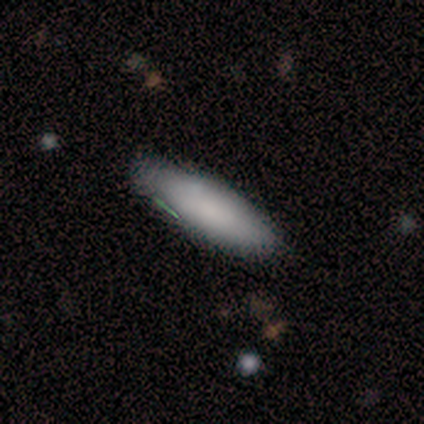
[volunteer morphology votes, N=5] Smooth or featured? smooth (60%)
How rounded? in between (67%)
Merging? none (100%)